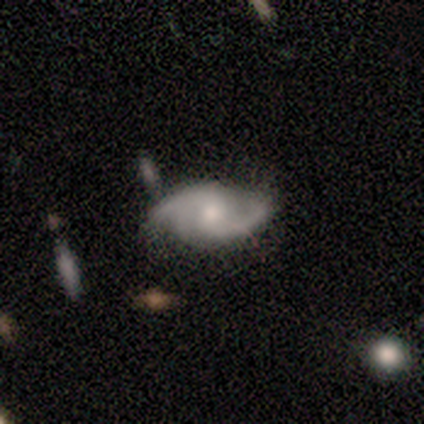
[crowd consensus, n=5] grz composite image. It shows a featured or disk galaxy (100%) with no bar (80%), 2 (60%) loose (60%) spiral arms (100%) and a moderate central bulge (60%). Merging: none (80%).